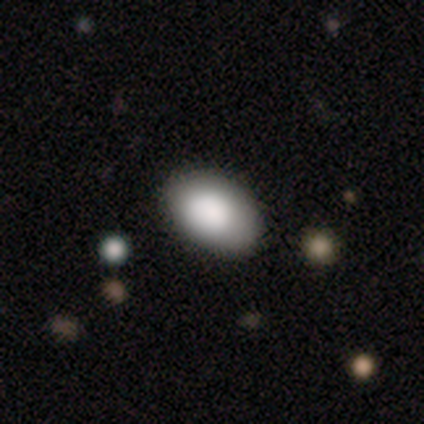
A smooth galaxy with no disk features (89%) that is in between round and cigar-shaped (91%). Merging: none (87%).